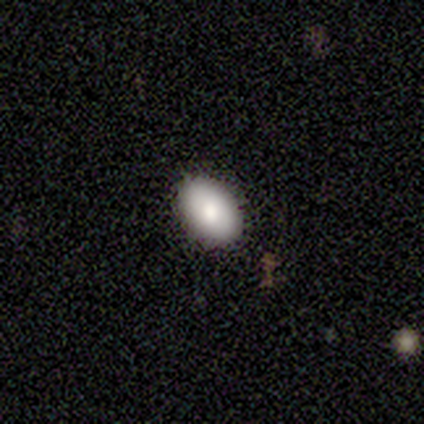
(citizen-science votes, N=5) A smooth galaxy with no disk features (60%) that is in between round and cigar-shaped (100%).

Vote fractions:
- Smooth or featured? smooth: 60% / featured or disk: 40% / star or artifact: 0%
- How rounded? in between: 100% / round: 0% / cigar-shaped: 0%
- Merging? none: 80% / major disturbance: 20% / minor disturbance: 0% / merger: 0%